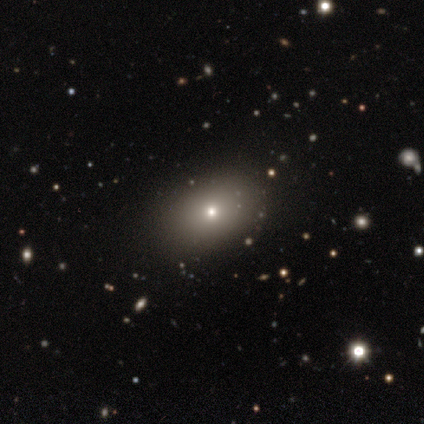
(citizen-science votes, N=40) Morphology: type=smooth (75%); roundness=in between (77%); merging=none (86%).